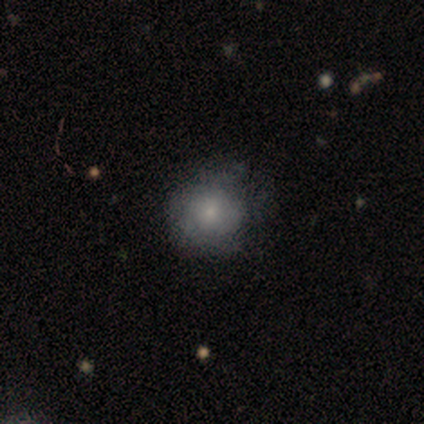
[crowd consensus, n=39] This is likely a smooth galaxy (67%). How rounded: clearly round (81%). Merging: possibly none (57%).